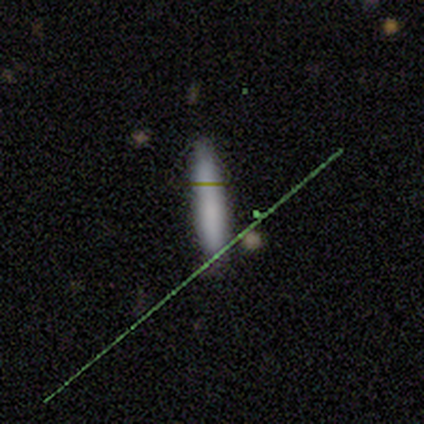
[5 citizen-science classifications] This appears to be a smooth galaxy with no disk features (80%) that is cigar-shaped (100%). Merging: none (100%).